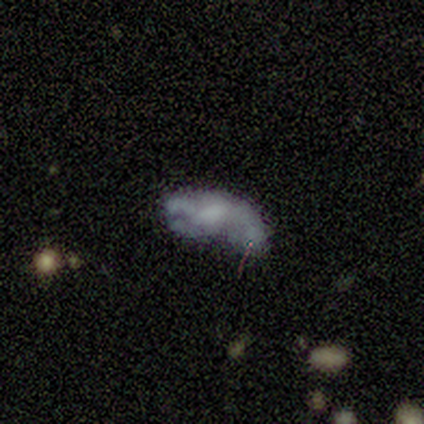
smooth_or_featured: featured or disk (p=0.62) [alt: smooth p=0.25]
disk_edge_on: no (p=0.80) [alt: yes p=0.20]
bar: no (p=0.75) [alt: weak p=0.25]
has_spiral_arms: no (p=0.75) [alt: yes p=0.25]
bulge_size: none (p=1.00)
merging: none (p=0.43) [alt: merger p=0.29]